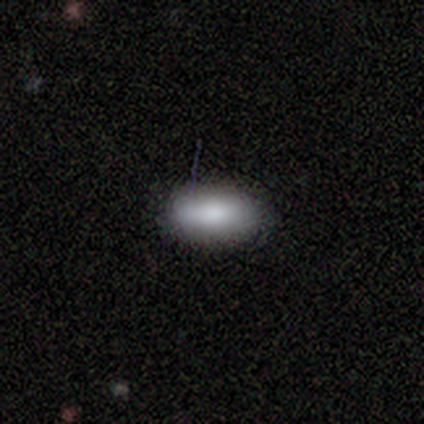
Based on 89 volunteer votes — smooth 96%, featured or disk 2%, star or artifact 2%. Down the decision tree: how rounded — in between (91%); merging — none (79%).